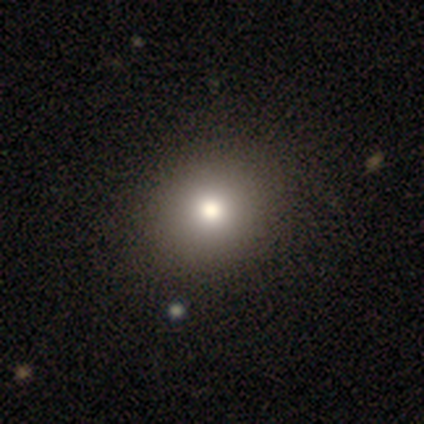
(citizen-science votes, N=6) Smooth or featured? smooth (50%, tied with star or artifact)
How rounded? round (100%)
Merging? none (100%)